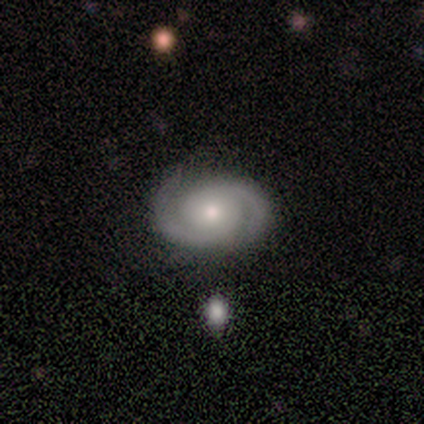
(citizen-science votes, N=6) Smooth or featured: featured or disk — 83% (smooth — 17%)
Edge-on disk: no — 100%
Bar: no — 100%
Spiral arms: yes — 100%
Spiral winding: medium — 80% (tight — 20%)
Spiral arm count: 2 — 100%
Bulge size: small — 60% (moderate — 40%)
Merging: none — 83% (merger — 17%)